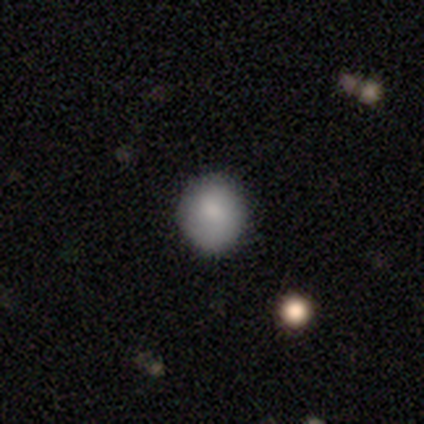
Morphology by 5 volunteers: Overall: smooth (100%). How rounded: round (100%). Merging: none (100%).